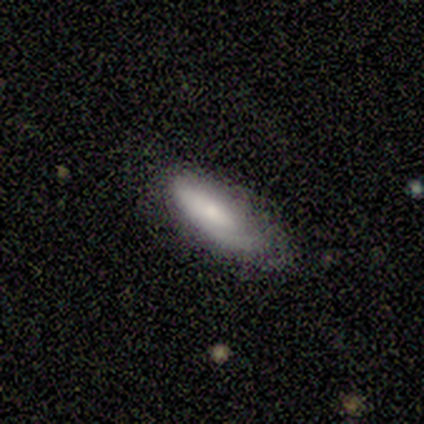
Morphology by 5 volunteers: This appears to be a smooth galaxy with no disk features (60%) that is in between round and cigar-shaped (67%). Merging: none (60%).